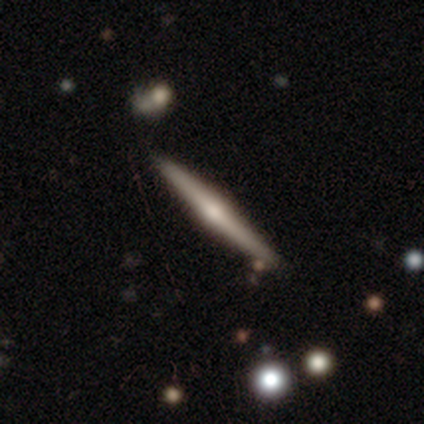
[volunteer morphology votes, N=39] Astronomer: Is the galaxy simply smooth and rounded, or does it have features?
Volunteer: featured or disk — 79%.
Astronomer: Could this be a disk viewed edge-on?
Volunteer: yes — 100%.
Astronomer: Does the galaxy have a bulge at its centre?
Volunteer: rounded — 84%.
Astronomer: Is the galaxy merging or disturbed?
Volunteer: none — 68%.